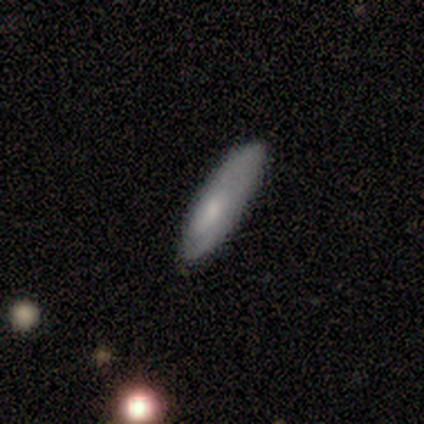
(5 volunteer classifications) Smooth or featured: smooth — 60% (featured or disk — 40%)
How rounded: cigar-shaped — 67% (in between — 33%)
Merging: none — 80% (minor disturbance — 20%)